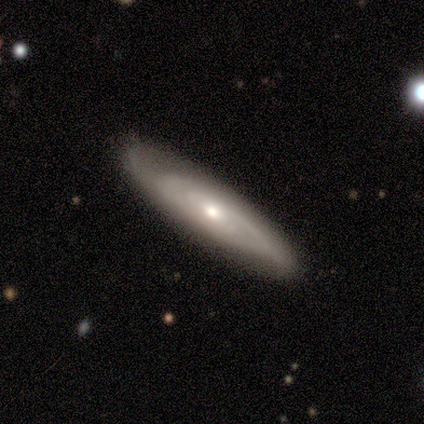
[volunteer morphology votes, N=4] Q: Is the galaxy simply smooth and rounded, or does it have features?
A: featured or disk — 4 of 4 (100%).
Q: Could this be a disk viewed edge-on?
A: no — 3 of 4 (75%).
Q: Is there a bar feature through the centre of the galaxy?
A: no — 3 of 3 (100%).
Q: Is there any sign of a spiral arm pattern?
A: yes — 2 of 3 (67%).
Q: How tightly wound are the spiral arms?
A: tight — 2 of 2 (100%).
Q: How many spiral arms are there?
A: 2 — 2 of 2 (100%).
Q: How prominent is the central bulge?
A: moderate — 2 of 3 (67%).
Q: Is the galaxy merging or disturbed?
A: none — 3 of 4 (75%).